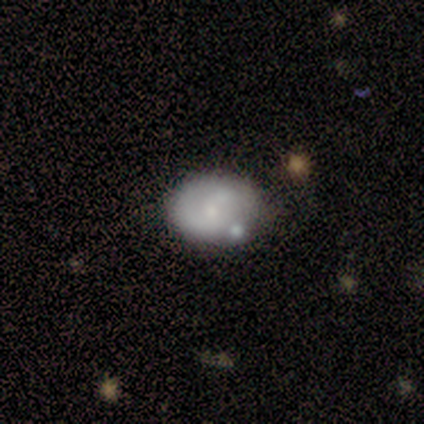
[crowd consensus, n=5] Smooth or featured? 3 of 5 (60%) said smooth. How rounded? 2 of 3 (67%) said in between. Merging? 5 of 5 (100%) said none.